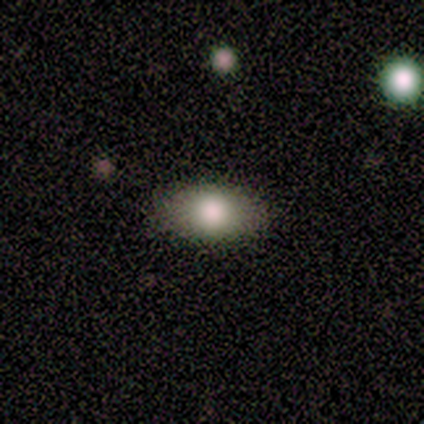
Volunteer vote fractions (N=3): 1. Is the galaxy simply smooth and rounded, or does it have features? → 100% smooth, 0% featured or disk, 0% star or artifact.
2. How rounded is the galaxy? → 100% in between, 0% round, 0% cigar-shaped.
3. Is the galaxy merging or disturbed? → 100% none, 0% minor disturbance, 0% major disturbance, 0% merger.